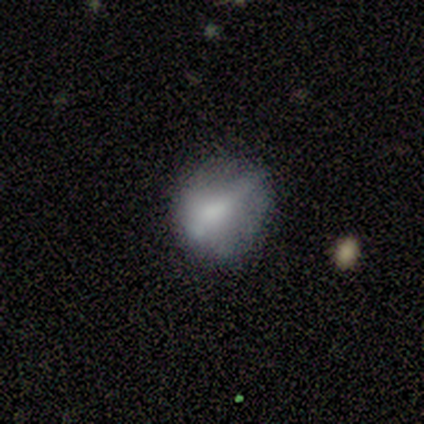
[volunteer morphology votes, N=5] type=smooth (80%); roundness=round (100%); merging=none (60%).